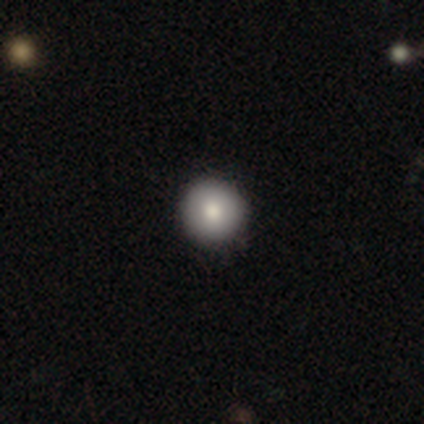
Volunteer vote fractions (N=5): Smooth or featured? 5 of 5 (100%) said smooth. How rounded? 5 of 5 (100%) said round. Merging? 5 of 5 (100%) said none.